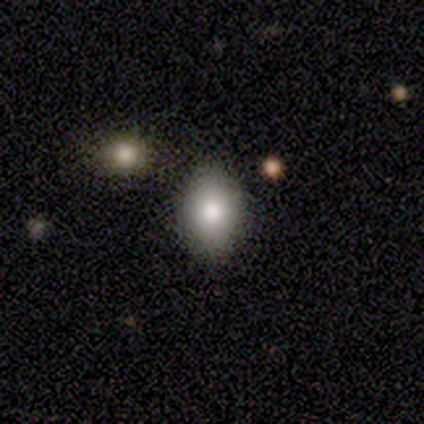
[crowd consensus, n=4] This is clearly a smooth galaxy (100%). How rounded: likely in between (75%). Merging: clearly none (100%).